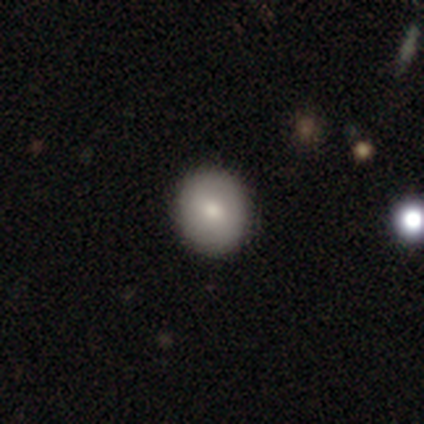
smooth 77%, featured or disk 15%, star or artifact 8%. Down the decision tree: how rounded — round (87%); merging — none (92%).